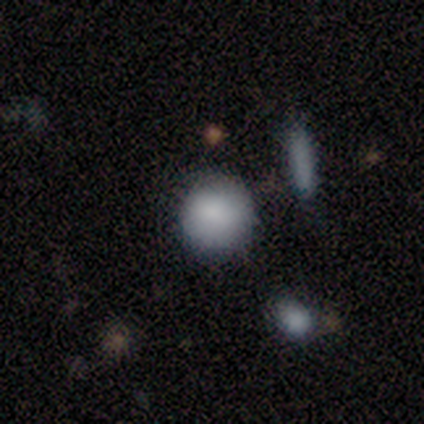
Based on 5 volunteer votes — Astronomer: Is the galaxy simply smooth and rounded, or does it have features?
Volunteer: smooth — 80%.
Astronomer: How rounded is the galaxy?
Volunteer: round — 75%.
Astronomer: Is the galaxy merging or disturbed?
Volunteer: none — 80%.